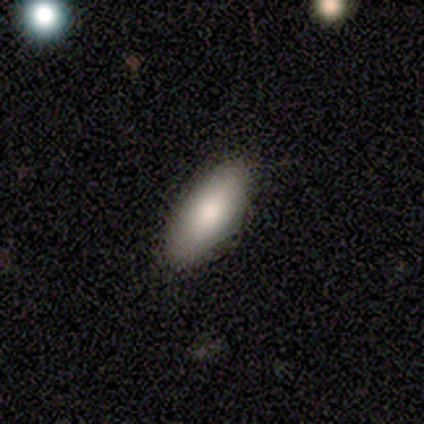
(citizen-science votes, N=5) This is clearly a smooth galaxy (100%). How rounded: clearly in between (80%). Merging: likely none (60%).